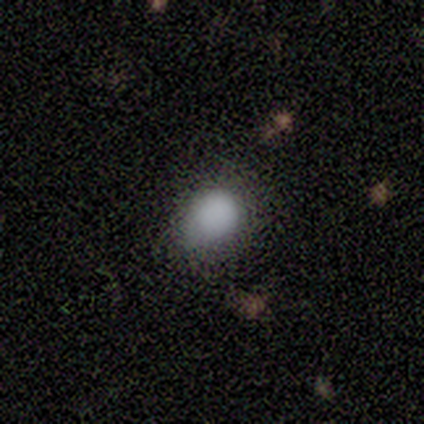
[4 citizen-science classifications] smooth-or-featured: smooth: 100% | featured or disk: 0% | star or artifact: 0%
  how-rounded: round: 100% | in between: 0% | cigar-shaped: 0%
  merging: none: 100% | minor disturbance: 0% | major disturbance: 0% | merger: 0%